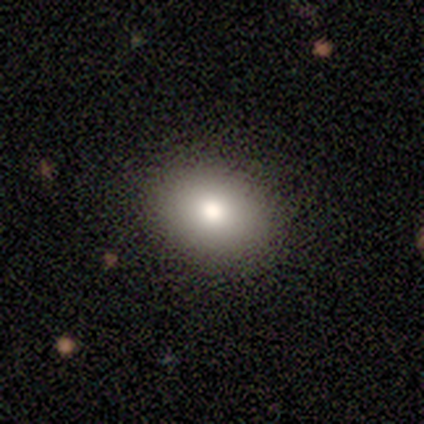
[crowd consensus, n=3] This is likely a smooth galaxy (67%). How rounded: possibly round (50%, tied with in between). Merging: clearly none (100%).